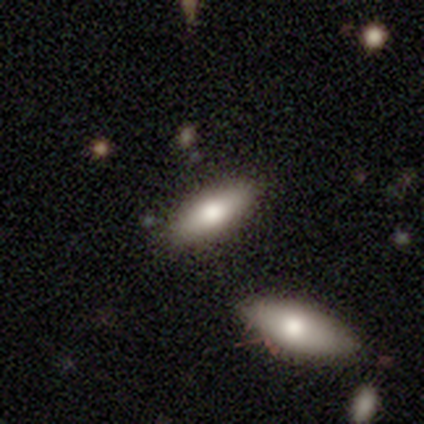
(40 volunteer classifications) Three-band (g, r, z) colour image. It shows a smooth galaxy with no disk features (68%) that is in between round and cigar-shaped (70%). Merging: none (89%).